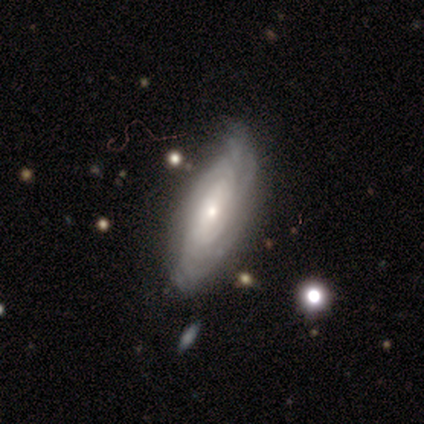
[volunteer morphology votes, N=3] smooth_or_featured: featured or disk (p=1.00)
disk_edge_on: no (p=1.00)
bar: weak (p=0.67) [alt: no p=0.33]
has_spiral_arms: yes (p=1.00)
spiral_winding: tight (p=0.33) [tied with: medium p=0.33, loose p=0.33]
spiral_arm_count: 2 (p=0.33) [tied with: more than 4 p=0.33, can't tell p=0.33]
bulge_size: small (p=0.67) [alt: moderate p=0.33]
merging: minor disturbance (p=0.67) [alt: none p=0.33]